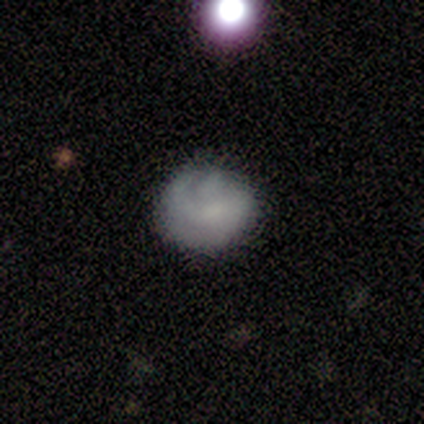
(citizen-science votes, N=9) Q: Smooth or featured?
A: featured or disk (56%); runner-up: smooth (44%)
Q: Edge-on disk?
A: no (100%)
Q: Bar?
A: no (100%)
Q: Spiral arms?
A: no (60%); runner-up: yes (40%)
Q: Bulge size?
A: small (40%); tied with: none (40%)
Q: Merging?
A: minor disturbance (56%); runner-up: none (44%)